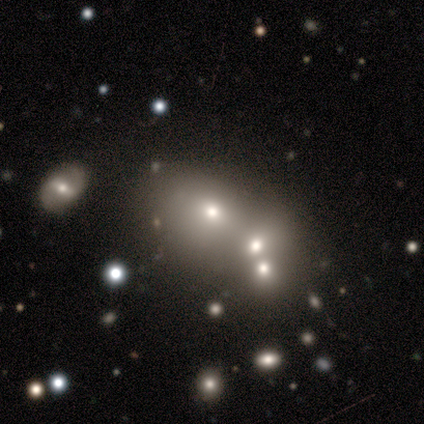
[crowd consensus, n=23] This appears to be a smooth galaxy with no disk features (65%) that is in between round and cigar-shaped (73%). Merging: merger (63%).